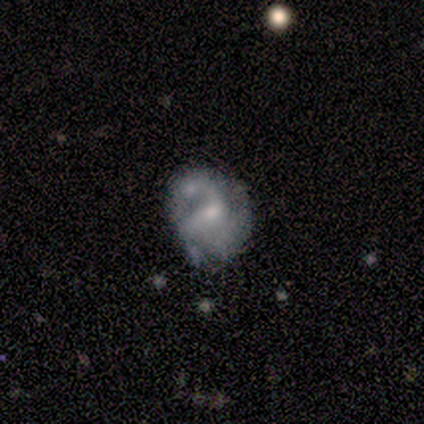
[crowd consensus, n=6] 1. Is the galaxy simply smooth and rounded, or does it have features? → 50% featured or disk, 33% star or artifact, 17% smooth.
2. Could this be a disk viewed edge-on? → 100% no, 0% yes.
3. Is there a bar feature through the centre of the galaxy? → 67% no, 33% weak, 0% strong.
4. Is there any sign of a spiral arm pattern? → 100% yes, 0% no.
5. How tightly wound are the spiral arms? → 67% medium, 33% loose, 0% tight.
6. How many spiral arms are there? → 33% 1 (tied), 33% 3 (tied), 33% can't tell (tied), 0% 2, 0% 4, 0% more than 4.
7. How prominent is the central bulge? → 67% moderate, 33% small, 0% dominant, 0% large, 0% none.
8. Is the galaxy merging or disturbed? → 25% none (tied), 25% minor disturbance (tied), 25% major disturbance (tied), 25% merger (tied).